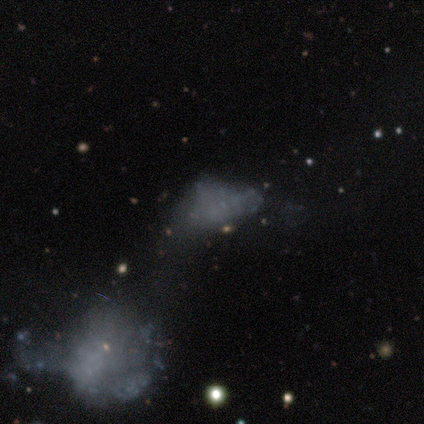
A featured or disk galaxy (40%, tied with star or artifact) with no bar (100%), no spiral arms (100%) and no central bulge (100%).

Vote fractions:
- Smooth or featured? featured or disk: 40% (tied) / star or artifact: 40% (tied) / smooth: 20%
- Edge-on disk? no: 100% / yes: 0%
- Bar? no: 100% / strong: 0% / weak: 0%
- Spiral arms? no: 100% / yes: 0%
- Bulge size? none: 100% / dominant: 0% / large: 0% / moderate: 0% / small: 0%
- Merging? none: 33% (tied) / minor disturbance: 33% (tied) / merger: 33% (tied) / major disturbance: 0%